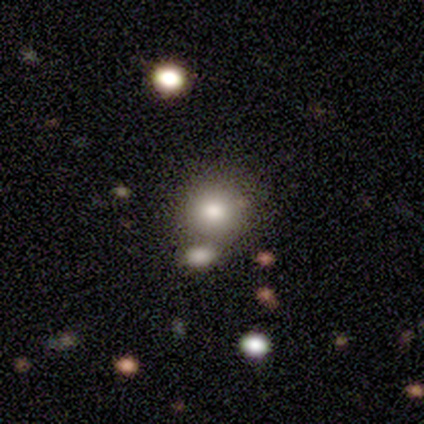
Smooth or featured?
  - smooth: 68% *
  - featured or disk: 25%
  - star or artifact: 8%
How rounded?
  - round: 85% *
  - in between: 15%
  - cigar-shaped: 0%
Merging?
  - none: 49% *
  - merger: 41%
  - minor disturbance: 8%
  - major disturbance: 3%